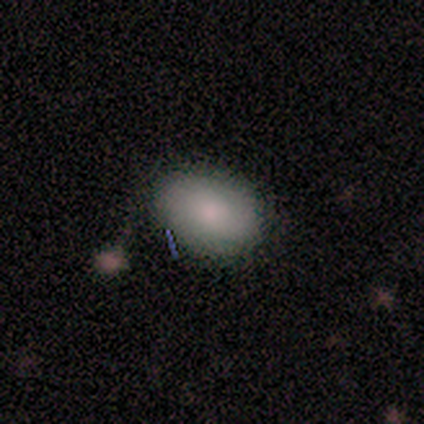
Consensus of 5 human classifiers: Smooth or featured? 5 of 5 (100%) said smooth. How rounded? 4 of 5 (80%) said in between. Merging? 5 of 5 (100%) said none.